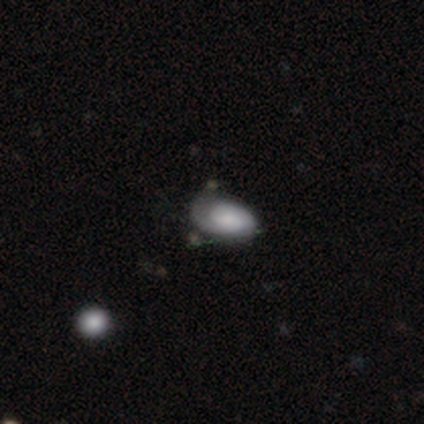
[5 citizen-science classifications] Smooth or featured?
  - smooth: 40% * (tied)
  - featured or disk: 40% * (tied)
  - star or artifact: 20%
How rounded?
  - in between: 100% *
  - round: 0%
  - cigar-shaped: 0%
Merging?
  - none: 50% *
  - minor disturbance: 25%
  - major disturbance: 25%
  - merger: 0%